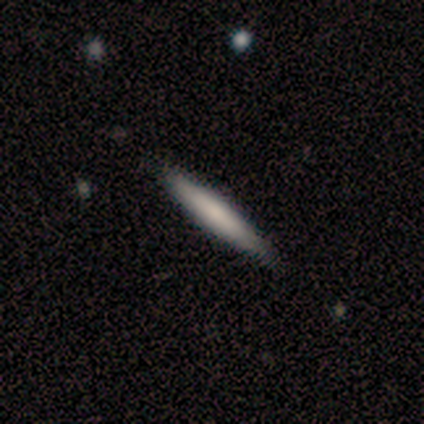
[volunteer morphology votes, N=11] A smooth galaxy with no disk features (73%) that is cigar-shaped (100%).

Vote fractions:
- Smooth or featured? smooth: 73% / featured or disk: 18% / star or artifact: 9%
- How rounded? cigar-shaped: 100% / round: 0% / in between: 0%
- Merging? none: 100% / minor disturbance: 0% / major disturbance: 0% / merger: 0%